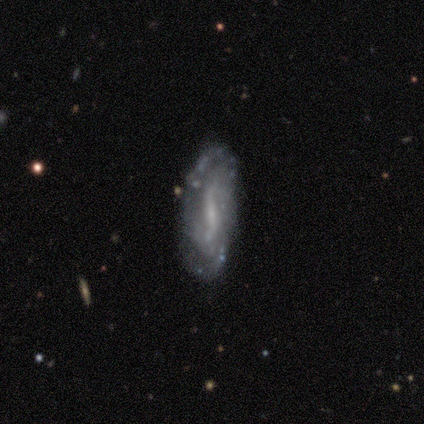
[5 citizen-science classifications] A featured or disk galaxy (80%) with a weak bar (50%, tied with no), 1 (33%, tied with 2 and can't tell) tight (33%, tied with medium and loose) spiral arms (75%) and a small central bulge (50%, tied with none). Merging: none (60%).